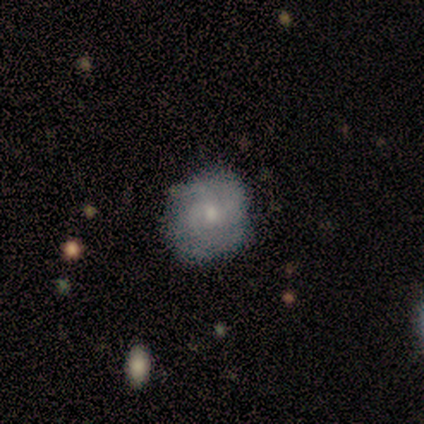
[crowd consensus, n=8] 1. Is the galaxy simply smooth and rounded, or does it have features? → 50% smooth (tied), 50% featured or disk (tied), 0% star or artifact.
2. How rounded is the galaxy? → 75% round, 25% in between, 0% cigar-shaped.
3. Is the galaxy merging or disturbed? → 75% none, 25% minor disturbance, 0% major disturbance, 0% merger.